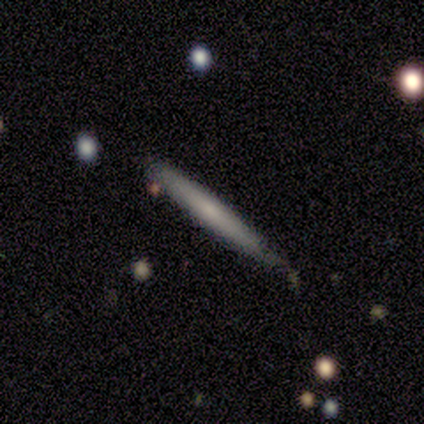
Volunteers were most divided on "merging": minor disturbance: 50%, none: 25%, major disturbance: 25%, merger: 0%. More confident: edge-on disk — yes (100%); edge-on bulge — none (100%); smooth or featured — featured or disk (75%).